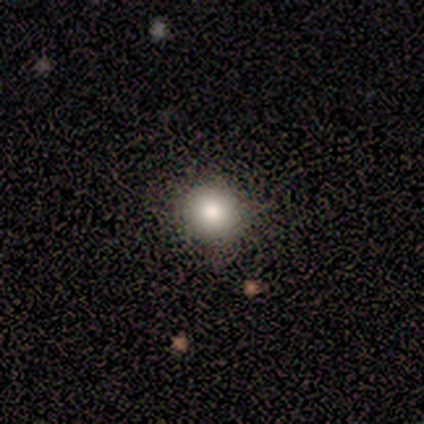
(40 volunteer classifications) Smooth or featured? smooth (88%)
How rounded? round (91%)
Merging? none (92%)